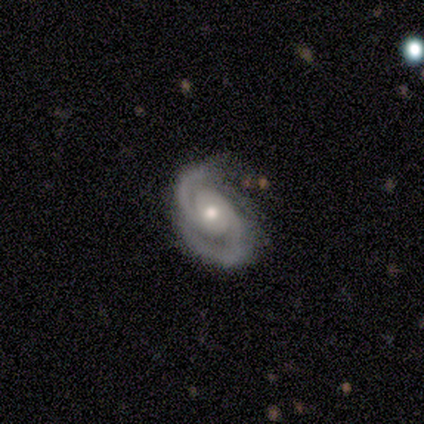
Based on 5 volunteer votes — Volunteers were most divided on "spiral winding": tight: 60%, medium: 40%, loose: 0%. More confident: smooth or featured — featured or disk (100%); edge-on disk — no (100%); spiral arms — yes (100%); spiral arm count — 2 (100%); merging — none (100%); bar — no (80%); bulge size — small (60%).